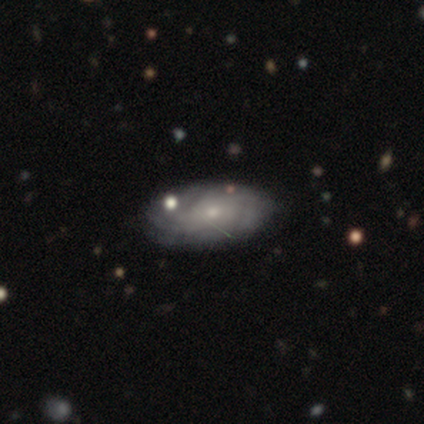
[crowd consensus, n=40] featured or disk 85%, smooth 10%, star or artifact 5%. Down the decision tree: edge-on disk — no (94%); bar — no (91%); spiral arms — yes (81%); spiral arm count — can't tell (58%); spiral winding — tight (69%); bulge size — small (62%); merging — none (61%).